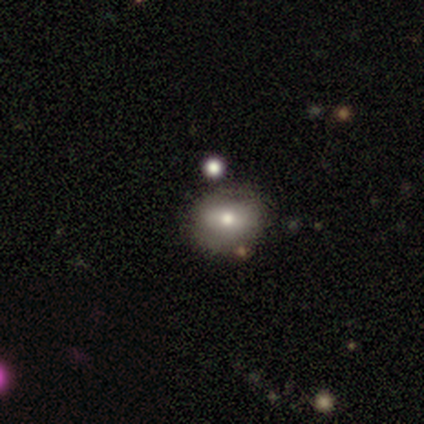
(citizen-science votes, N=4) smooth_or_featured: smooth (p=0.50) [tied with: star or artifact p=0.50]
how_rounded: round (p=1.00)
merging: none (p=0.50) [tied with: minor disturbance p=0.50]